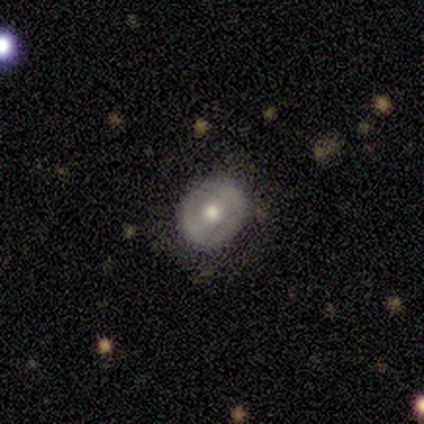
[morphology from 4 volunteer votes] smooth_or_featured: smooth (p=0.50) [alt: featured or disk p=0.25]
how_rounded: round (p=0.50) [tied with: in between p=0.50]
merging: none (p=1.00)